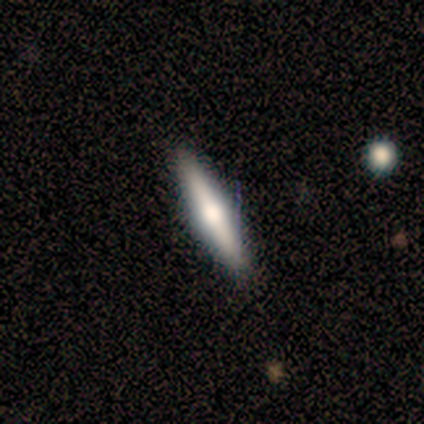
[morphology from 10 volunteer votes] smooth_or_featured: smooth (p=0.50) [tied with: featured or disk p=0.50]
how_rounded: cigar-shaped (p=1.00)
merging: none (p=1.00)